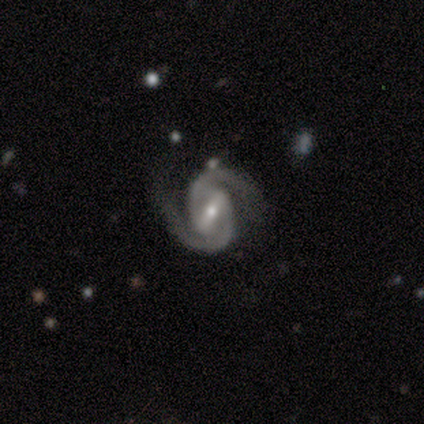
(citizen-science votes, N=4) Smooth or featured: featured or disk — 50% (tied with star or artifact — 50%)
Edge-on disk: no — 100%
Bar: strong — 50% (tied with weak — 50%)
Spiral arms: yes — 100%
Spiral winding: tight — 50% (tied with medium — 50%)
Spiral arm count: 2 — 100%
Bulge size: moderate — 50% (tied with small — 50%)
Merging: none — 100%